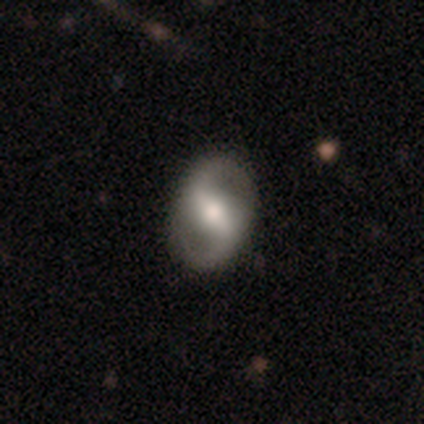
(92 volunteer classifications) A featured or disk galaxy (86%) with a weak bar (53%), 2 (97%) medium (51%) spiral arms (92%) and a moderate central bulge (60%).

Vote fractions:
- Smooth or featured? featured or disk: 86% / smooth: 13% / star or artifact: 1%
- Edge-on disk? no: 95% / yes: 5%
- Bar? weak: 53% / strong: 37% / no: 9%
- Spiral arms? yes: 92% / no: 8%
- Spiral winding? medium: 51% / loose: 38% / tight: 12%
- Spiral arm count? 2: 97% / can't tell: 3% / 1: 0% / 3: 0% / 4: 0% / more than 4: 0%
- Bulge size? moderate: 60% / small: 21% / large: 16% / dominant: 3% / none: 0%
- Merging? none: 93% / minor disturbance: 5% / major disturbance: 1% / merger: 0%